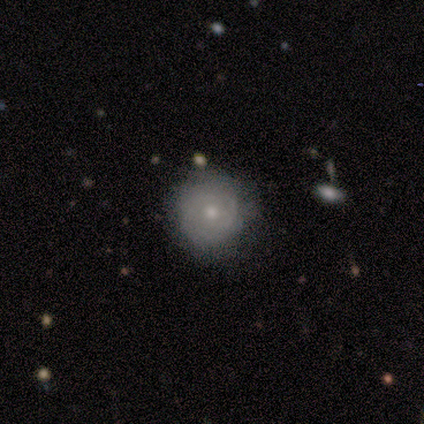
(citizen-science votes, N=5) Overall: featured or disk (60%; smooth 40%). Edge-on disk: no (100%). Bar: no (100%). Spiral arms: no (100%). Bulge size: small (67%; moderate 33%). Merging: none (100%).